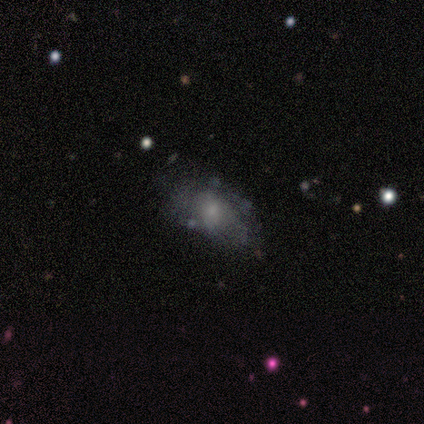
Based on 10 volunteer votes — smooth-or-featured: smooth: 50% | featured or disk: 40% | star or artifact: 10%
  how-rounded: in between: 80% | round: 20% | cigar-shaped: 0%
  merging: none: 67% | major disturbance: 22% | minor disturbance: 11% | merger: 0%